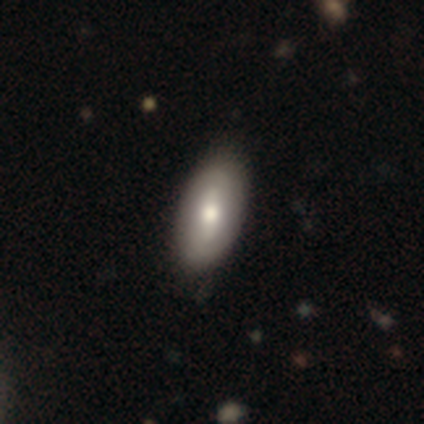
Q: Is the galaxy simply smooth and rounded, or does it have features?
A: smooth — 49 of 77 (64%).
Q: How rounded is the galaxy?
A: in between — 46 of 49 (94%).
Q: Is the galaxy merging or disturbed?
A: none — 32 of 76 (42%).